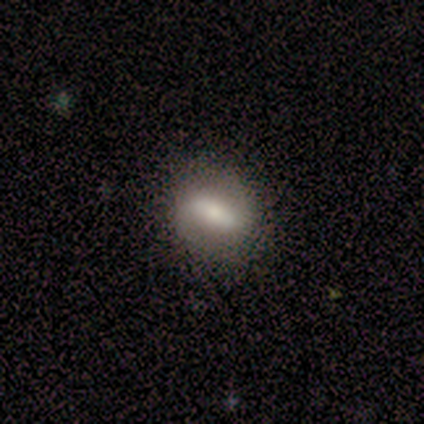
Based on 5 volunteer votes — Smooth or featured? 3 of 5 (60%) said featured or disk. Edge-on disk? 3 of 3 (100%) said no. Bar? 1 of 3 (33%, tied with weak and no) said strong. Spiral arms? 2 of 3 (67%) said no. Bulge size? 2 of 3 (67%) said small. Merging? 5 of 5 (100%) said none.